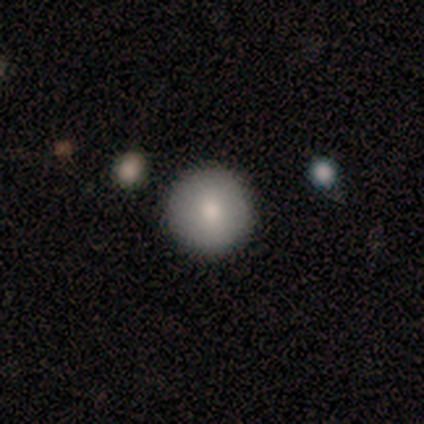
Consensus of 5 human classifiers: Smooth or featured?
  - smooth: 40% * (tied)
  - featured or disk: 40% * (tied)
  - star or artifact: 20%
How rounded?
  - round: 100% *
  - in between: 0%
  - cigar-shaped: 0%
Merging?
  - none: 75% *
  - major disturbance: 25%
  - minor disturbance: 0%
  - merger: 0%